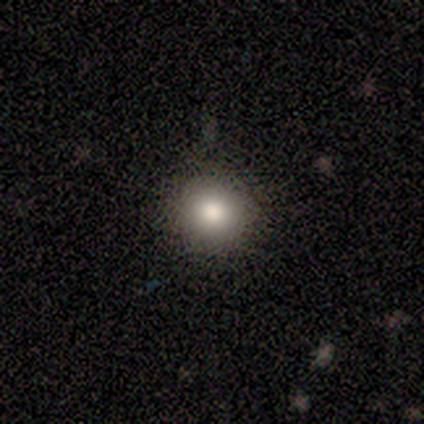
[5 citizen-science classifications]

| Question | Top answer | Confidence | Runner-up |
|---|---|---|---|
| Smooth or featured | smooth | 80% | star or artifact (20%) |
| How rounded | round | 100% | — |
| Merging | none | 75% | minor disturbance (25%) |